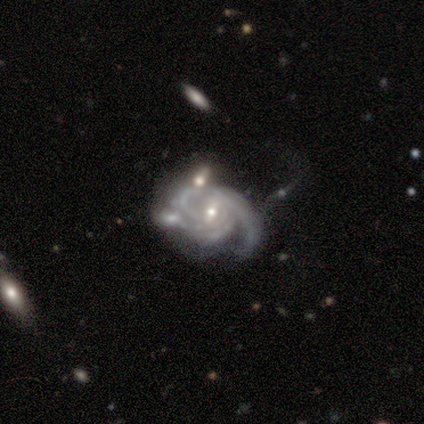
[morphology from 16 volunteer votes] Smooth or featured?
  - featured or disk: 88% *
  - smooth: 6%
  - star or artifact: 6%
Edge-on disk?
  - no: 100% *
  - yes: 0%
Bar?
  - weak: 50% *
  - no: 43%
  - strong: 7%
Spiral arms?
  - yes: 100% *
  - no: 0%
Spiral winding?
  - tight: 43% * (tied)
  - medium: 43% * (tied)
  - loose: 14%
Spiral arm count?
  - 3: 43% *
  - can't tell: 29%
  - 2: 21%
  - 4: 7%
  - 1: 0%
  - more than 4: 0%
Bulge size?
  - small: 64% *
  - moderate: 36%
  - dominant: 0%
  - large: 0%
  - none: 0%
Merging?
  - none: 33% * (tied)
  - major disturbance: 33% * (tied)
  - merger: 27%
  - minor disturbance: 7%